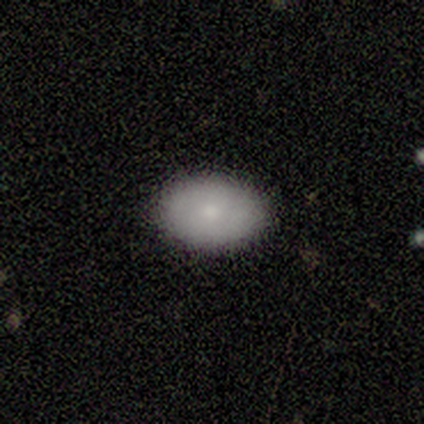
A smooth galaxy with no disk features (100%) that is in between round and cigar-shaped (100%). Merging: none (100%).